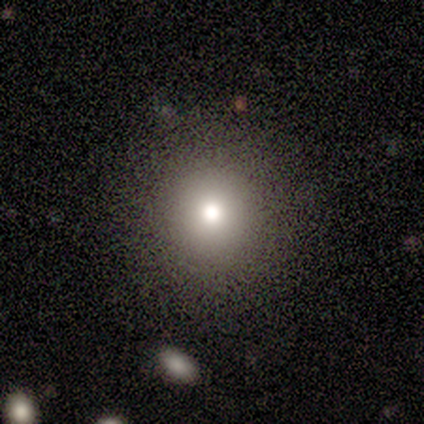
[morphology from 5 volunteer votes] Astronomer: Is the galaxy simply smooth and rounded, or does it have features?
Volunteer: smooth — 60%.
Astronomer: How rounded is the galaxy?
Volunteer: round — 100%.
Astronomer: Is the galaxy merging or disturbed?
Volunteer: none — 100%.